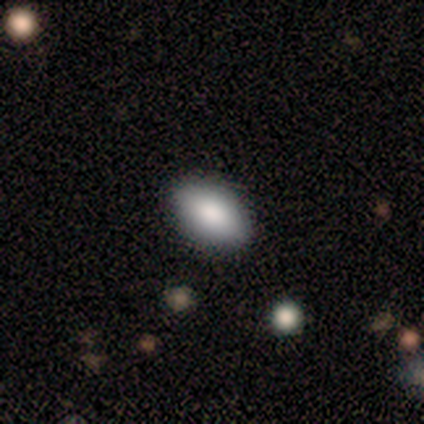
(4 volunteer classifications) Smooth or featured? smooth (75%)
How rounded? in between (100%)
Merging? none (100%)